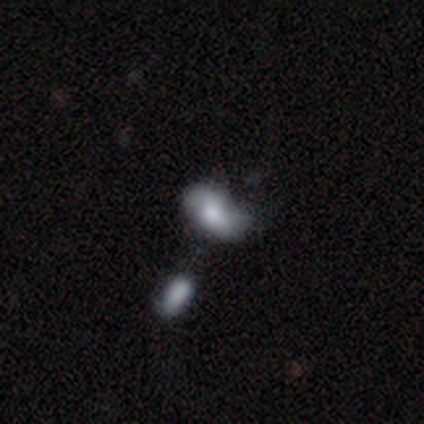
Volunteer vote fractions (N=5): Smooth or featured?
  - smooth: 60% *
  - featured or disk: 40%
  - star or artifact: 0%
How rounded?
  - in between: 100% *
  - round: 0%
  - cigar-shaped: 0%
Merging?
  - merger: 80% *
  - minor disturbance: 20%
  - none: 0%
  - major disturbance: 0%